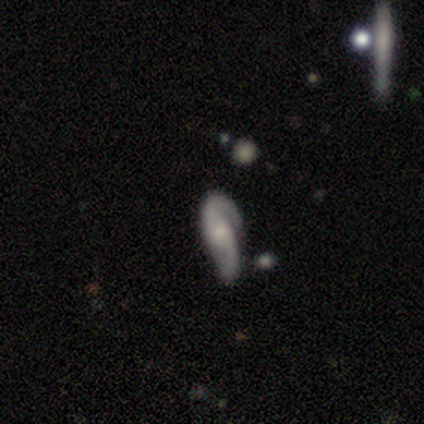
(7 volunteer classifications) This appears to be a featured or disk galaxy (86%) with no bar (67%), 2 (100%) loose (50%) spiral arms (100%) and a small central bulge (50%). Merging: minor disturbance (71%).